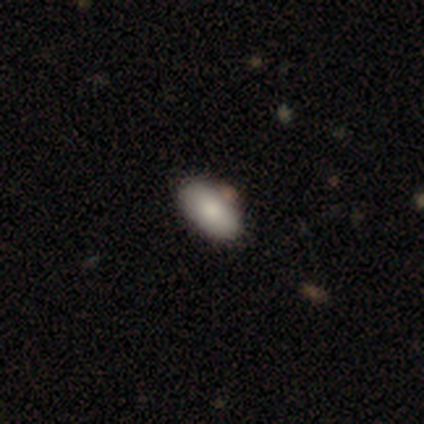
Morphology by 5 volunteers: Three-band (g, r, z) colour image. It shows a smooth galaxy with no disk features (100%) that is in between round and cigar-shaped (100%). Merging: none (80%).